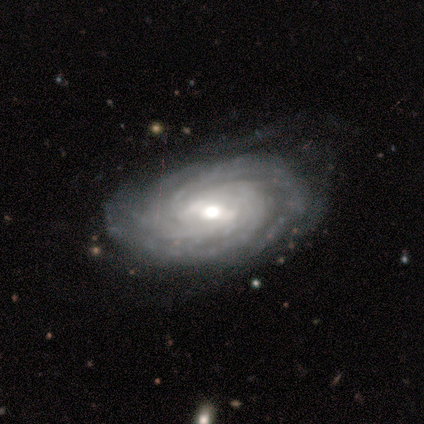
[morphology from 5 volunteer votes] This is clearly a featured or disk galaxy (80%). It is clearly not viewed edge-on (100%). Bar: clearly weak (100%). Spiral arm pattern: clearly yes (100%). Spiral arm count: possibly more than 4 (50%). Spiral winding: clearly tight (100%). Central bulge: possibly moderate (50%, tied with small). Merging: marginally none (40%, tied with major disturbance).